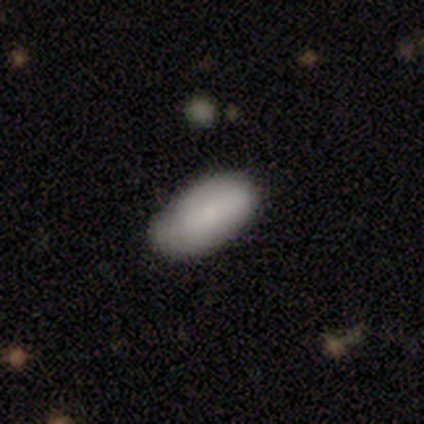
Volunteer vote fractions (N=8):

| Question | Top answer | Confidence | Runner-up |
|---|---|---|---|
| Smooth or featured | smooth | 100% | — |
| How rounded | in between | 100% | — |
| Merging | none | 62% | minor disturbance (25%) |